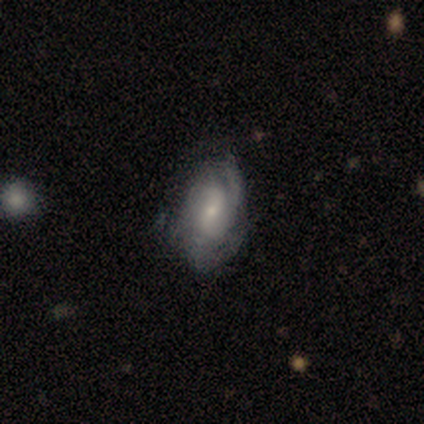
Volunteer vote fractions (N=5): Smooth or featured? featured or disk (100%)
Edge-on disk? no (80%)
Bar? weak (75%)
Spiral arms? yes (75%)
Spiral winding? tight (33%, tied with medium and loose)
Spiral arm count? 2 (33%, tied with 3 and can't tell)
Bulge size? small (75%)
Merging? none (60%)